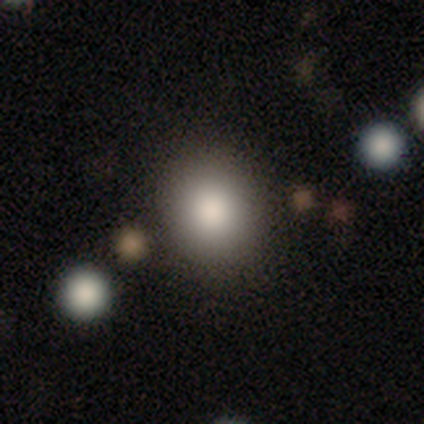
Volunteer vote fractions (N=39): This appears to be a smooth galaxy with no disk features (74%) that is round (59%). Merging: none (88%).